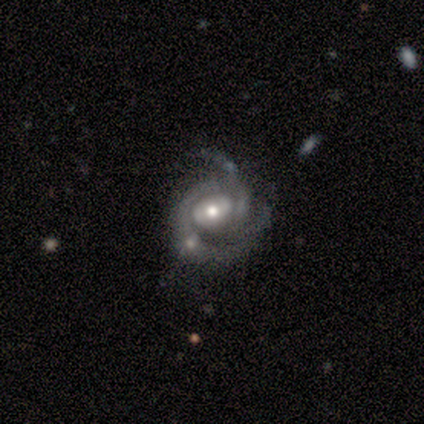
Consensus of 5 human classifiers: Smooth or featured: featured or disk — 100%
Edge-on disk: no — 100%
Bar: no — 80% (weak — 20%)
Spiral arms: yes — 100%
Spiral winding: tight — 40% (tied with medium — 40%)
Spiral arm count: can't tell — 40% (1 — 20%)
Bulge size: moderate — 80% (small — 20%)
Merging: none — 80% (minor disturbance — 20%)